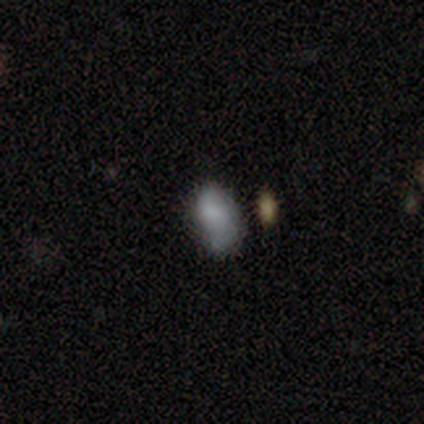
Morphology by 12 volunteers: smooth-or-featured: featured or disk: 50% | smooth: 42% | star or artifact: 8%
  disk-edge-on: no: 100% | yes: 0%
    bar: no: 83% | weak: 17% | strong: 0%
    has-spiral-arms: yes: 83% | no: 17%
      spiral-winding: tight: 60% | medium: 40% | loose: 0%
      spiral-arm-count: 2: 40% | 1: 20% | 4: 20% | can't tell: 20% | 3: 0% | more than 4: 0%
    bulge-size: small: 50% | none: 33% | moderate: 17% | dominant: 0% | large: 0%
  merging: none: 73% | major disturbance: 18% | minor disturbance: 9% | merger: 0%